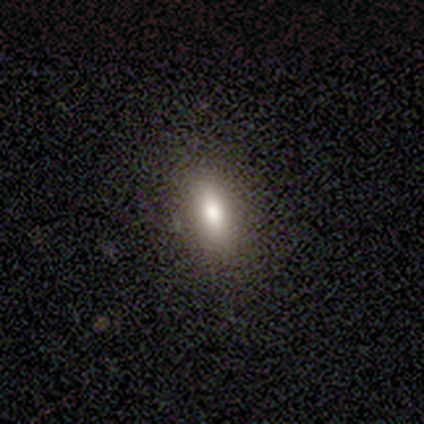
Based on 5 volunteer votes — Smooth or featured?
  - smooth: 60% *
  - featured or disk: 20%
  - star or artifact: 20%
How rounded?
  - in between: 100% *
  - round: 0%
  - cigar-shaped: 0%
Merging?
  - none: 100% *
  - minor disturbance: 0%
  - major disturbance: 0%
  - merger: 0%